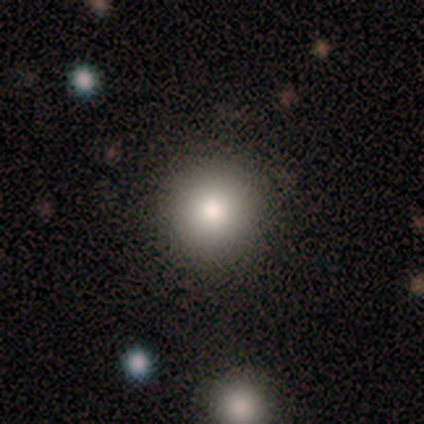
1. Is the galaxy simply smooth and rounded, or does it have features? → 75% smooth, 25% star or artifact, 0% featured or disk.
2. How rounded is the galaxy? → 100% round, 0% in between, 0% cigar-shaped.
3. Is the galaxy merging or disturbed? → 83% none, 17% merger, 0% minor disturbance, 0% major disturbance.